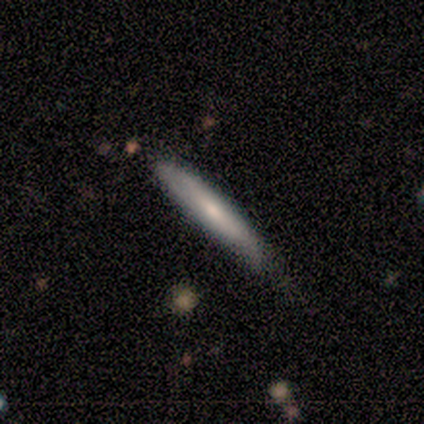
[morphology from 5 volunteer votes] Smooth or featured? smooth (100%)
How rounded? cigar-shaped (80%)
Merging? none (80%)